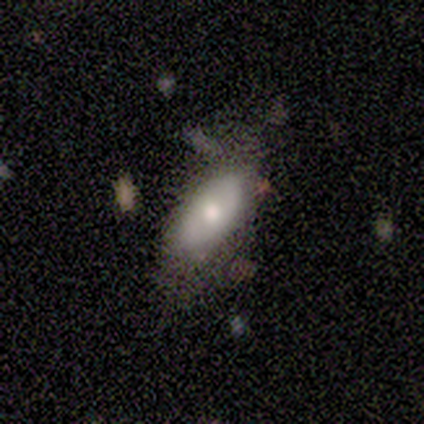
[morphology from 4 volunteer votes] Smooth or featured?
  - smooth: 50% *
  - featured or disk: 25%
  - star or artifact: 25%
How rounded?
  - in between: 100% *
  - round: 0%
  - cigar-shaped: 0%
Merging?
  - none: 100% *
  - minor disturbance: 0%
  - major disturbance: 0%
  - merger: 0%